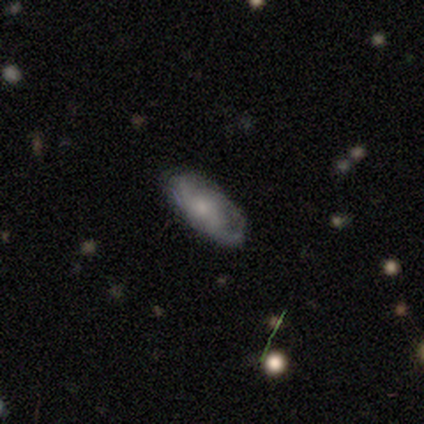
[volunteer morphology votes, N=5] Smooth or featured: smooth — 40% (tied with featured or disk — 40%)
How rounded: in between — 100%
Merging: minor disturbance — 50% (none — 25%)